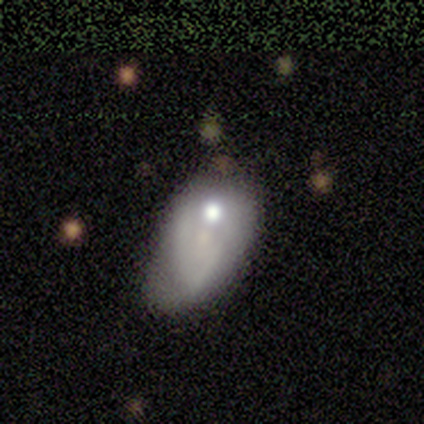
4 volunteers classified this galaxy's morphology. Overall: smooth (75%). How rounded: in between (67%; round 33%). Merging: merger (50%; none 25%).